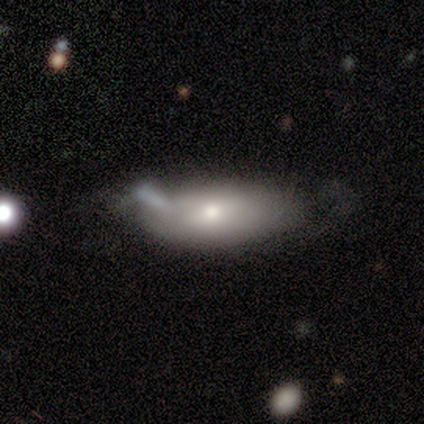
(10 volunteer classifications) A smooth galaxy with no disk features (90%) that is in between round and cigar-shaped (100%). Merging: minor disturbance (40%).